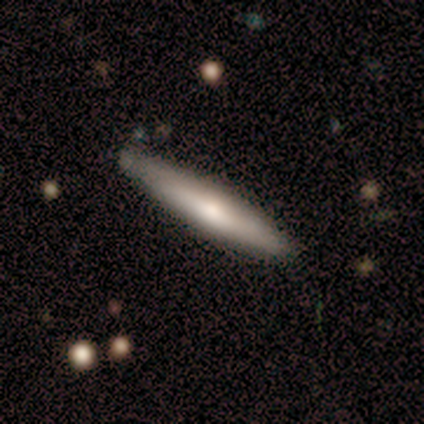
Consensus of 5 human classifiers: A smooth galaxy with no disk features (60%) that is cigar-shaped (100%).

Vote fractions:
- Smooth or featured? smooth: 60% / featured or disk: 40% / star or artifact: 0%
- How rounded? cigar-shaped: 100% / round: 0% / in between: 0%
- Merging? none: 100% / minor disturbance: 0% / major disturbance: 0% / merger: 0%